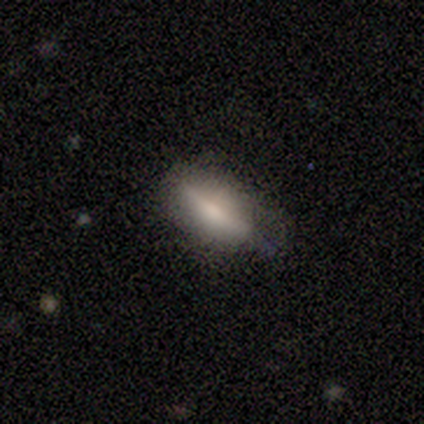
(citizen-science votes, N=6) smooth 83%, featured or disk 17%, star or artifact 0%. Down the decision tree: how rounded — in between (80%); merging — minor disturbance (50%).